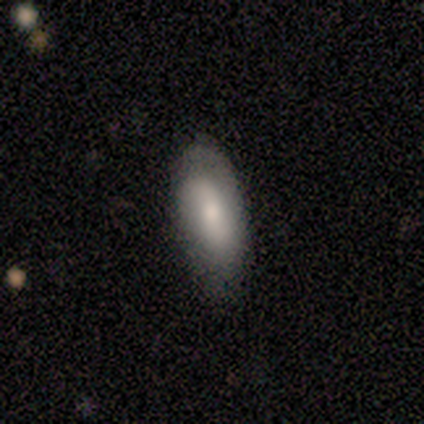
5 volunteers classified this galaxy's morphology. Smooth or featured? 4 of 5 (80%) said smooth. How rounded? 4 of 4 (100%) said in between. Merging? 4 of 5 (80%) said none.